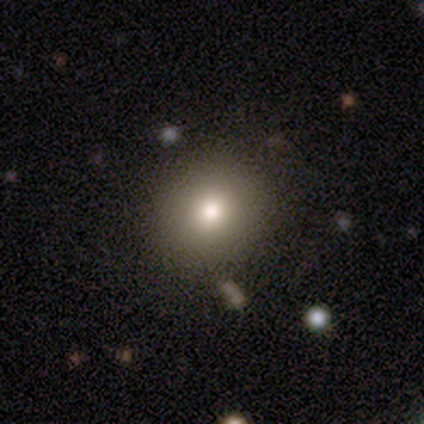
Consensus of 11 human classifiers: Q: Smooth or featured?
A: smooth (73%); runner-up: star or artifact (18%)
Q: How rounded?
A: round (62%); runner-up: in between (38%)
Q: Merging?
A: none (100%)